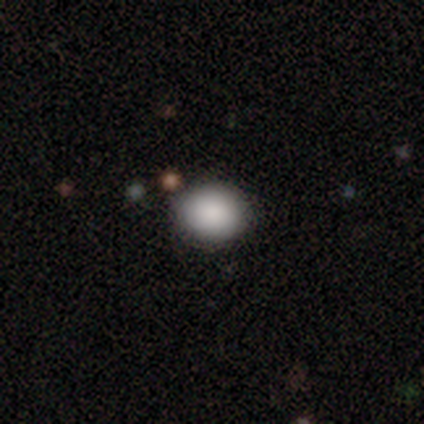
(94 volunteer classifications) This appears to be a smooth galaxy with no disk features (81%) that is round (68%). Merging: none (89%).